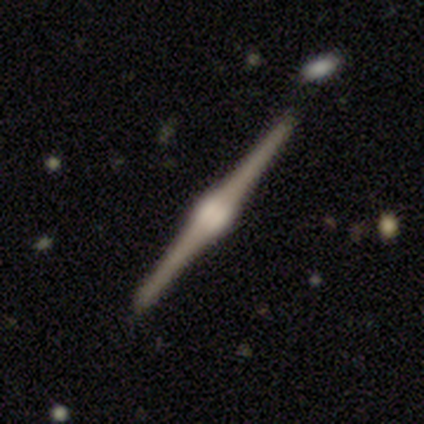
smooth-or-featured: featured or disk: 100% | smooth: 0% | star or artifact: 0%
  disk-edge-on: yes: 100% | no: 0%
    edge-on-bulge: rounded: 100% | boxy: 0% | none: 0%
  merging: none: 80% | minor disturbance: 20% | major disturbance: 0% | merger: 0%